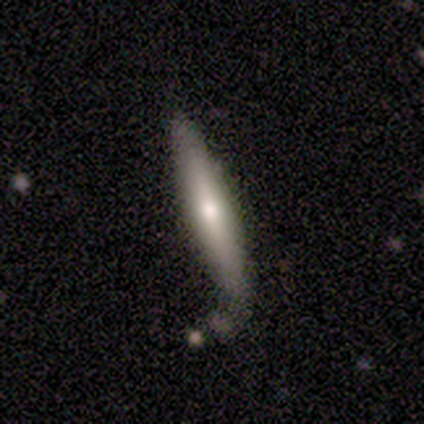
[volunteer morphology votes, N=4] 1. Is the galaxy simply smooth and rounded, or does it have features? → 75% smooth, 25% featured or disk, 0% star or artifact.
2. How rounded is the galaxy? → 100% cigar-shaped, 0% round, 0% in between.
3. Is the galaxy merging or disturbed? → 50% none (tied), 50% minor disturbance (tied), 0% major disturbance, 0% merger.